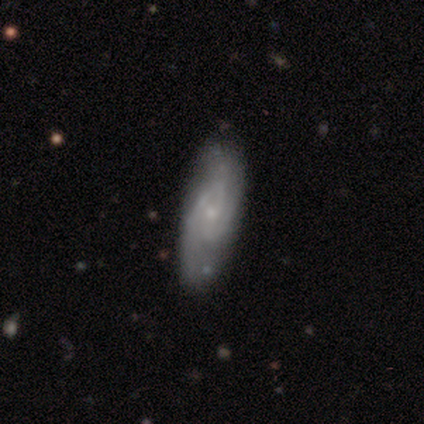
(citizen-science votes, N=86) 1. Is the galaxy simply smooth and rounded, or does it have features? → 77% featured or disk, 20% smooth, 3% star or artifact.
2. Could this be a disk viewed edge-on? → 85% no, 15% yes.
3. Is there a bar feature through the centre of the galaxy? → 52% no, 45% weak, 4% strong.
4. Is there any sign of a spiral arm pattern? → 96% yes, 4% no.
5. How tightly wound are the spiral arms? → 54% medium, 37% tight, 9% loose.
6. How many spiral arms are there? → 48% 2, 26% 3, 24% can't tell, 2% 4, 0% 1, 0% more than 4.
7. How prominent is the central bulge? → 73% small, 21% moderate, 4% none, 2% dominant, 0% large.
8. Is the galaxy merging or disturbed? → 75% none, 19% minor disturbance, 4% major disturbance, 2% merger.